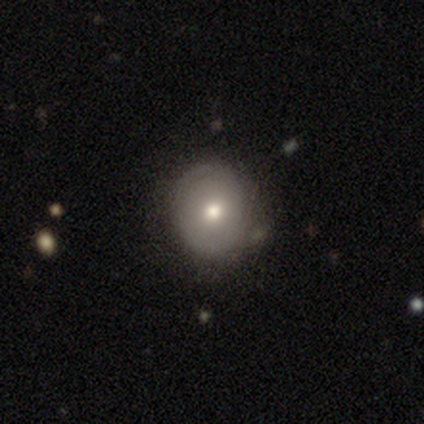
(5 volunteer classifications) This is marginally a smooth galaxy (40%, tied with featured or disk). How rounded: clearly round (100%). Merging: possibly none (50%).